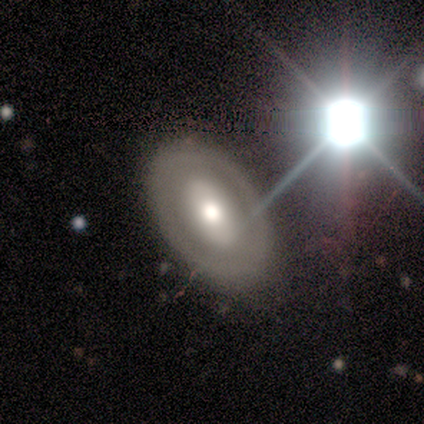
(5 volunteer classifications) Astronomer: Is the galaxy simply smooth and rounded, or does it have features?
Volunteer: smooth — 40%, tied with star or artifact at 40%.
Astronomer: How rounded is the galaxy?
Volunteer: in between — 100%.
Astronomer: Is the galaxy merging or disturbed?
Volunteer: none — 100%.